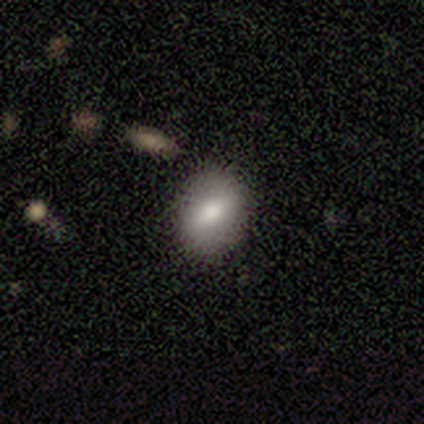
smooth_or_featured: smooth (p=1.00)
how_rounded: in between (p=0.75) [alt: round p=0.25]
merging: none (p=1.00)